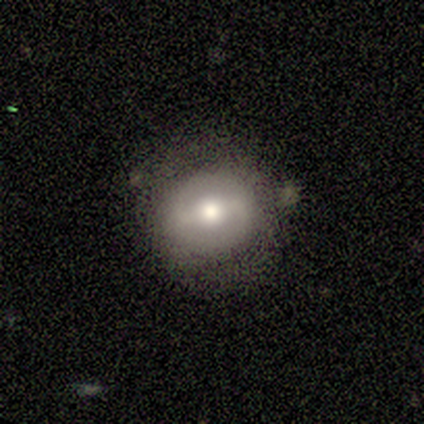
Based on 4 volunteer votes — Smooth or featured?
  - featured or disk: 75% *
  - smooth: 25%
  - star or artifact: 0%
Edge-on disk?
  - no: 100% *
  - yes: 0%
Bar?
  - strong: 67% *
  - weak: 33%
  - no: 0%
Spiral arms?
  - yes: 100% *
  - no: 0%
Spiral winding?
  - loose: 100% *
  - tight: 0%
  - medium: 0%
Spiral arm count?
  - 2: 100% *
  - 1: 0%
  - 3: 0%
  - 4: 0%
  - more than 4: 0%
  - can't tell: 0%
Bulge size?
  - moderate: 67% *
  - large: 33%
  - dominant: 0%
  - small: 0%
  - none: 0%
Merging?
  - none: 100% *
  - minor disturbance: 0%
  - major disturbance: 0%
  - merger: 0%